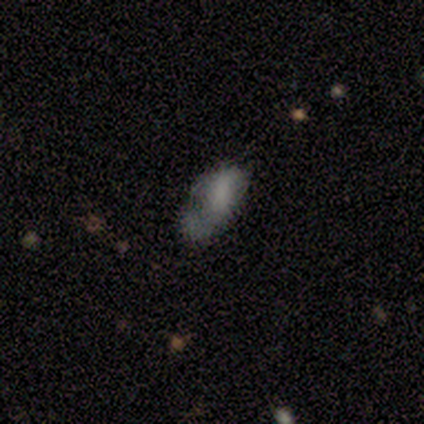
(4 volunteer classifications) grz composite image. It shows a featured or disk galaxy (75%) with no bar (100%), no spiral arms (67%) and no central bulge (67%). Merging: minor disturbance (75%).